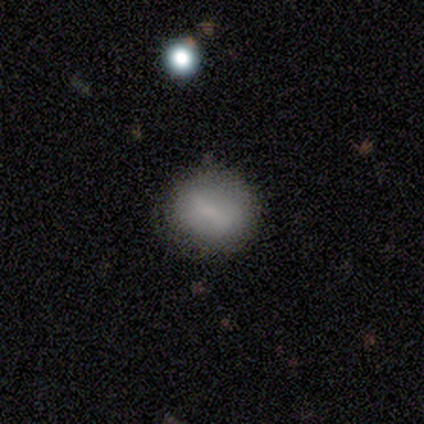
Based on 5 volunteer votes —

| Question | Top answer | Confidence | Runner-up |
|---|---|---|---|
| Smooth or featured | smooth | 100% | — |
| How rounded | in between | 60% | round (40%) |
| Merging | none | 60% | minor disturbance (40%) |